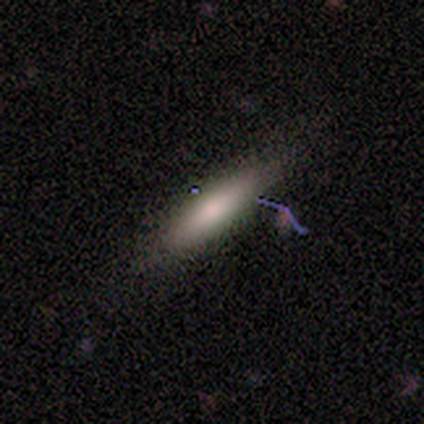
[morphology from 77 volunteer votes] smooth 75%, featured or disk 18%, star or artifact 6%. Down the decision tree: how rounded — cigar-shaped (66%); merging — none (40%).